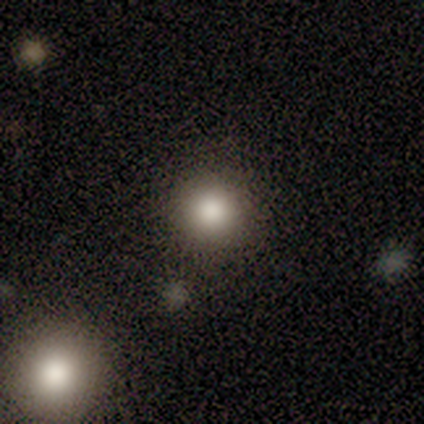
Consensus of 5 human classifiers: Q: Smooth or featured?
A: smooth (100%)
Q: How rounded?
A: round (100%)
Q: Merging?
A: none (80%); runner-up: minor disturbance (20%)